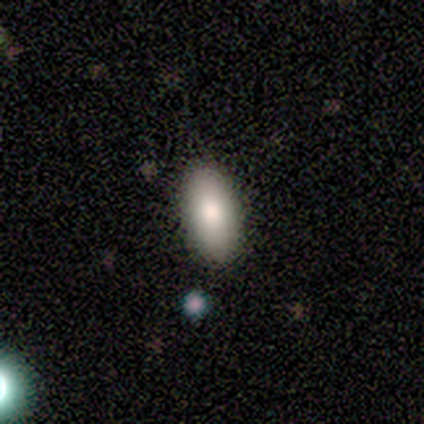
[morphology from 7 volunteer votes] Smooth or featured: smooth — 100%
How rounded: in between — 100%
Merging: none — 100%